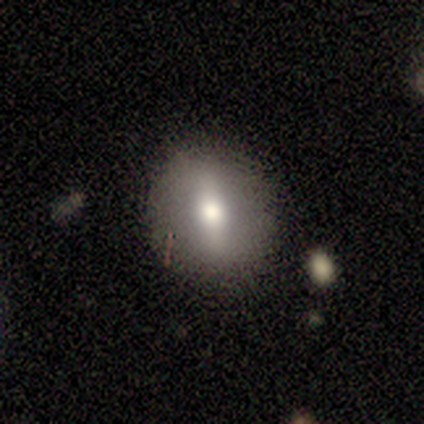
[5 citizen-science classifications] Smooth or featured: featured or disk — 60% (smooth — 40%)
Edge-on disk: no — 67% (yes — 33%)
Bar: strong — 50% (tied with weak — 50%)
Spiral arms: no — 100%
Bulge size: large — 50% (tied with moderate — 50%)
Merging: none — 100%